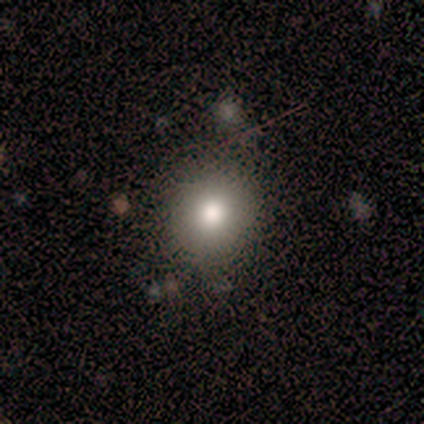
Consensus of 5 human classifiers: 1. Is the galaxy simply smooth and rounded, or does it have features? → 100% smooth, 0% featured or disk, 0% star or artifact.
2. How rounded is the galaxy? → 80% round, 20% in between, 0% cigar-shaped.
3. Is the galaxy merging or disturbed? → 80% none, 20% minor disturbance, 0% major disturbance, 0% merger.